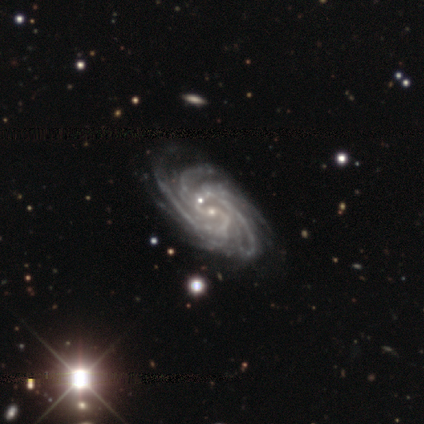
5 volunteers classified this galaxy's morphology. smooth_or_featured: featured or disk (p=1.00)
disk_edge_on: no (p=1.00)
bar: no (p=0.60) [alt: strong p=0.20]
has_spiral_arms: yes (p=1.00)
spiral_winding: tight (p=0.80) [alt: medium p=0.20]
spiral_arm_count: 4 (p=0.40) [tied with: more than 4 p=0.40]
bulge_size: small (p=1.00)
merging: none (p=0.80) [alt: minor disturbance p=0.20]